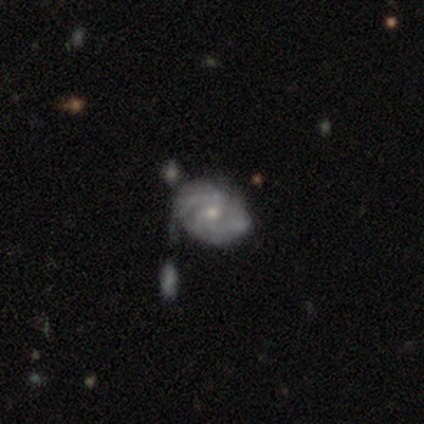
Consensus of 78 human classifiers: A featured or disk galaxy (86%) with no bar (67%), 2 (42%) tight (47%) spiral arms (90%) and a small central bulge (55%). Merging: none (32%).